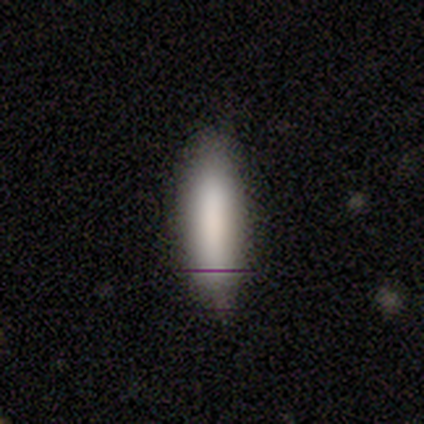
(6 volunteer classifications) Volunteers were most divided on "how rounded": in between: 60%, cigar-shaped: 40%, round: 0%. More confident: smooth or featured — smooth (83%); merging — none (80%).